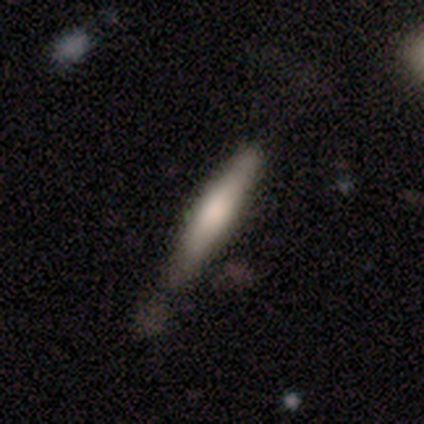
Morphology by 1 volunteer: Overall: smooth (100%). How rounded: cigar-shaped (100%). Merging: none (100%).